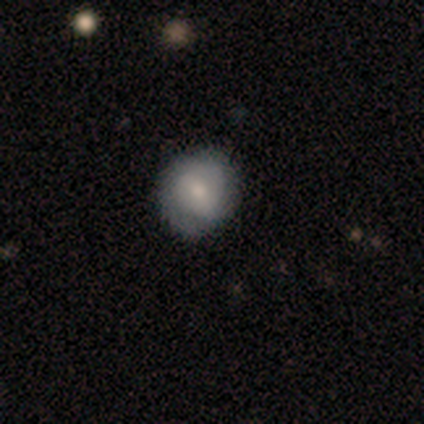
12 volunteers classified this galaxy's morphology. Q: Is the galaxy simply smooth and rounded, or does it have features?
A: smooth — 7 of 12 (58%).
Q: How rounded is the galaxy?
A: round — 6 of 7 (86%).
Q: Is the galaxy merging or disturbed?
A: none — 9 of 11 (82%).